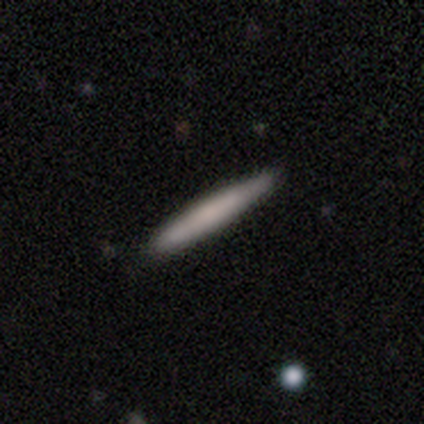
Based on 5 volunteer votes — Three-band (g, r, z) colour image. It shows a smooth galaxy with no disk features (60%) that is cigar-shaped (100%). Merging: none (100%).